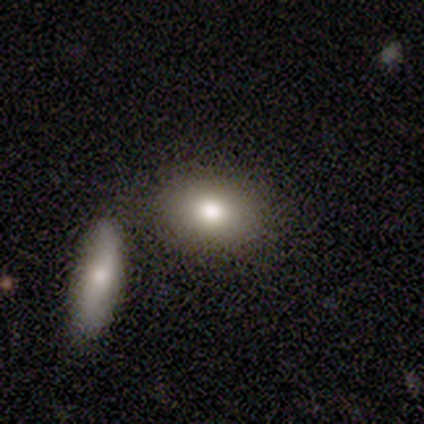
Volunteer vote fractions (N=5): A smooth galaxy with no disk features (80%) that is in between round and cigar-shaped (100%). Merging: none (75%).